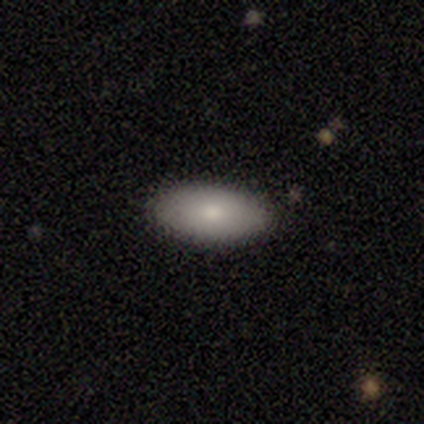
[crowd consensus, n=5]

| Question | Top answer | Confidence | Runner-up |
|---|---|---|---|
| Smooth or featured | smooth | 60% | featured or disk (20%) |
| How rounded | in between | 100% | — |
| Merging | none | 100% | — |